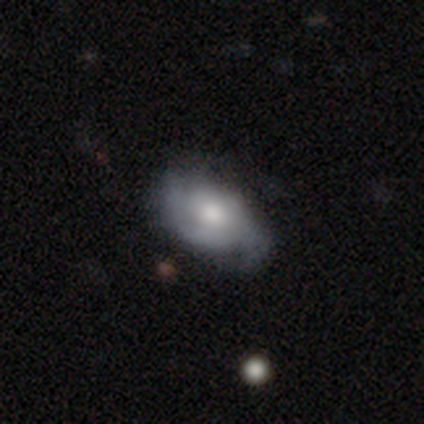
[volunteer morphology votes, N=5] smooth_or_featured: featured or disk (p=0.60) [alt: smooth p=0.20]
disk_edge_on: no (p=1.00)
bar: weak (p=0.67) [alt: no p=0.33]
has_spiral_arms: yes (p=1.00)
spiral_winding: medium (p=0.67) [alt: tight p=0.33]
spiral_arm_count: 2 (p=0.67) [alt: 3 p=0.33]
bulge_size: moderate (p=0.67) [alt: small p=0.33]
merging: none (p=1.00)